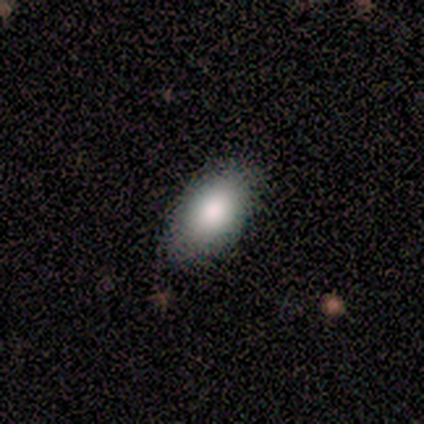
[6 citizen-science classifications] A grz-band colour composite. It shows a smooth galaxy with no disk features (67%) that is in between round and cigar-shaped (100%). Merging: none (100%).